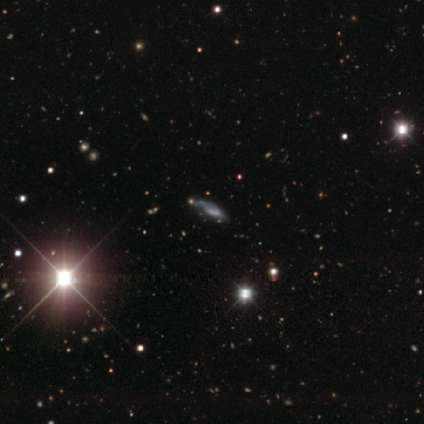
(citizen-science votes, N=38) Overall: star or artifact (53%; featured or disk 37%).